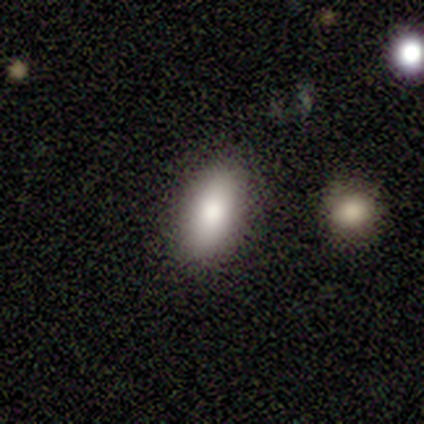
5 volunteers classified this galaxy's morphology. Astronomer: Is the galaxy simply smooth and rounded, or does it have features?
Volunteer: smooth — 80%.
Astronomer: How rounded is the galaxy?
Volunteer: in between — 100%.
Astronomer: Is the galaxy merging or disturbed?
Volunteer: none — 75%.